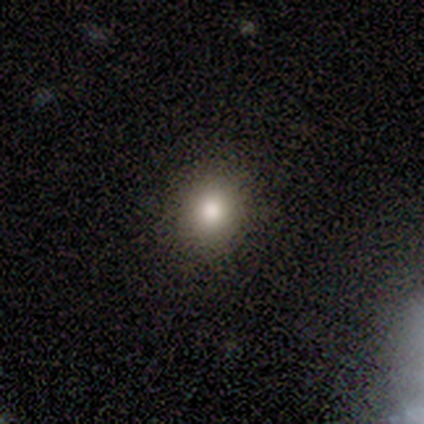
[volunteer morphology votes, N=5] Smooth or featured?
  - smooth: 100% *
  - featured or disk: 0%
  - star or artifact: 0%
How rounded?
  - round: 100% *
  - in between: 0%
  - cigar-shaped: 0%
Merging?
  - none: 100% *
  - minor disturbance: 0%
  - major disturbance: 0%
  - merger: 0%